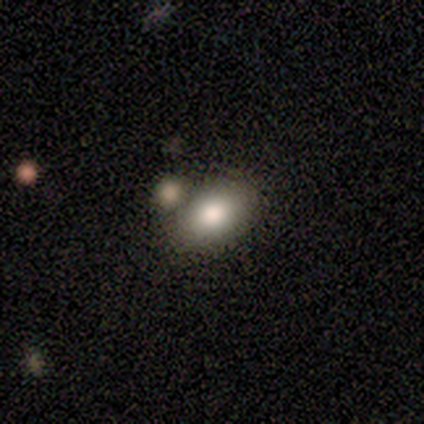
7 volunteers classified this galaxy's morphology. Smooth or featured? smooth (86%)
How rounded? in between (83%)
Merging? none (50%)